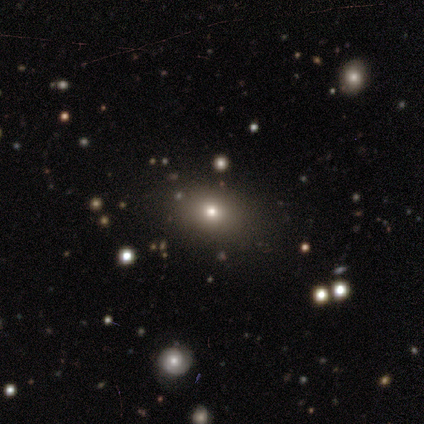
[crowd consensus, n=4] Volunteers were most divided on "how rounded": round: 75%, in between: 25%, cigar-shaped: 0%. More confident: smooth or featured — smooth (100%); merging — none (75%).